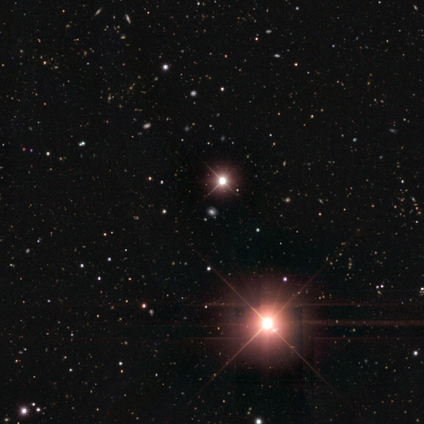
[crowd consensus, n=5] smooth_or_featured: star or artifact (p=1.00)